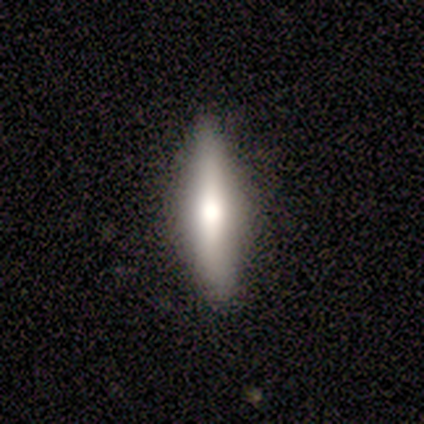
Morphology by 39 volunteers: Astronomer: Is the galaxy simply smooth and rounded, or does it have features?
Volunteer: smooth — 67%.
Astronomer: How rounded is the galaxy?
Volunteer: cigar-shaped — 73%.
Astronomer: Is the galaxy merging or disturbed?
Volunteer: none — 92%.